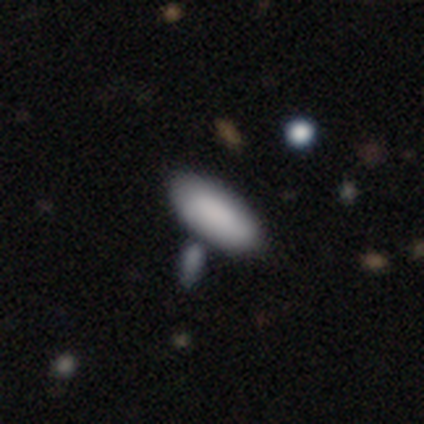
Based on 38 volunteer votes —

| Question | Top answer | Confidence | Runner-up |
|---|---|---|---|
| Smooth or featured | smooth | 82% | featured or disk (16%) |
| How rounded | in between | 81% | cigar-shaped (19%) |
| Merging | none | 49% | merger (30%) |